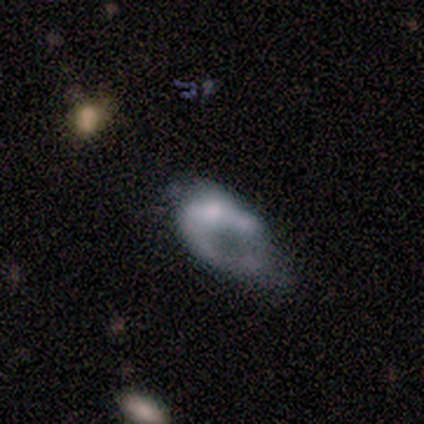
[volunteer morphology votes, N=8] This appears to be a featured or disk galaxy (75%) with no bar (100%), no spiral arms (67%) and a small central bulge (33%, tied with none). Merging: none (50%).